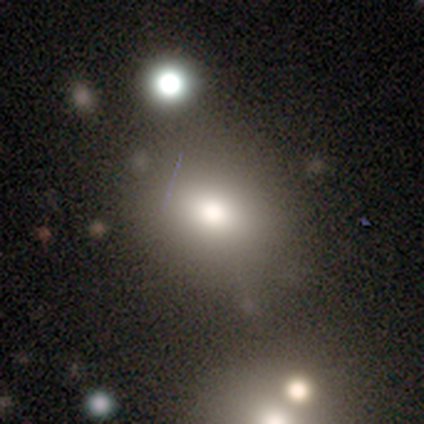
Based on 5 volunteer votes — Morphology: type=smooth (60%); roundness=in between (67%); merging=none (40%, tied with minor disturbance).